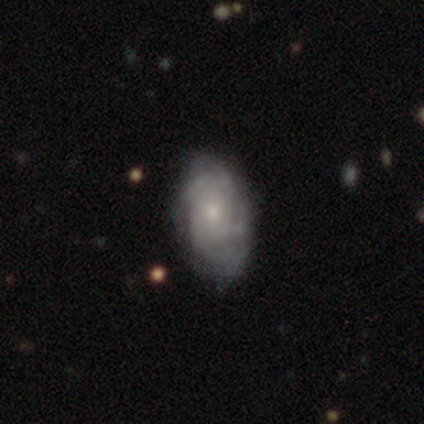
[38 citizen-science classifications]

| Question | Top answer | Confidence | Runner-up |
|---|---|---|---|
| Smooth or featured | featured or disk | 76% | smooth (21%) |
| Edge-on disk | no | 97% | yes (3%) |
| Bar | no | 89% | weak (11%) |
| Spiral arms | yes | 89% | no (11%) |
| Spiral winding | tight | 68% | medium (24%) |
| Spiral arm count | can't tell | 40% | 4 (28%) |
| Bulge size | small | 71% | moderate (21%) |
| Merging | none | 49% | minor disturbance (30%) |